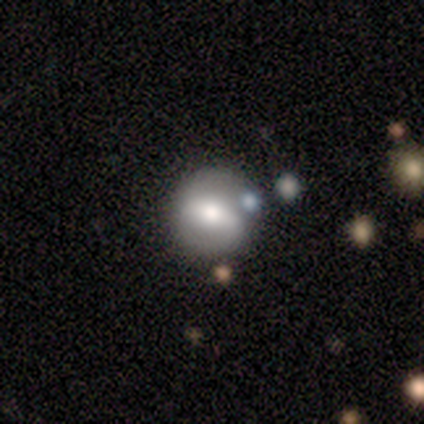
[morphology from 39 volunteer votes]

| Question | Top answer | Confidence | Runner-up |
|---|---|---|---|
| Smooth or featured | featured or disk | 56% | smooth (41%) |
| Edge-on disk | no | 100% | — |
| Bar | strong | 55% | weak (36%) |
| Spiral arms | yes | 64% | no (36%) |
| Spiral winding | medium | 50% | tight (29%) |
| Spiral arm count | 2 | 79% | 1 (21%) |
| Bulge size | moderate | 50% | large (27%) |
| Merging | none | 74% | minor disturbance (18%) |